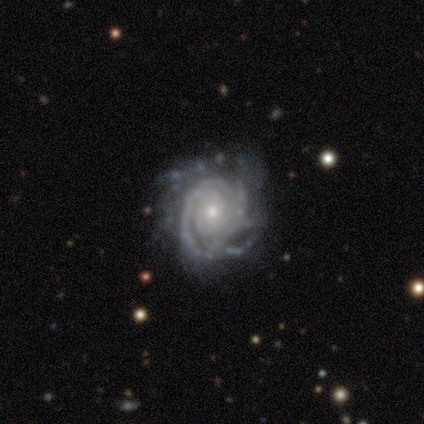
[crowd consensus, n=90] smooth-or-featured: featured or disk: 96% | star or artifact: 3% | smooth: 1%
  disk-edge-on: no: 99% | yes: 1%
    bar: no: 85% | weak: 11% | strong: 5%
    has-spiral-arms: yes: 92% | no: 8%
      spiral-winding: tight: 79% | medium: 15% | loose: 5%
      spiral-arm-count: can't tell: 37% | more than 4: 22% | 3: 19% | 4: 12% | 2: 8% | 1: 3%
    bulge-size: small: 69% | moderate: 21% | none: 6% | large: 2% | dominant: 1%
  merging: none: 68% | minor disturbance: 17% | major disturbance: 14% | merger: 1%